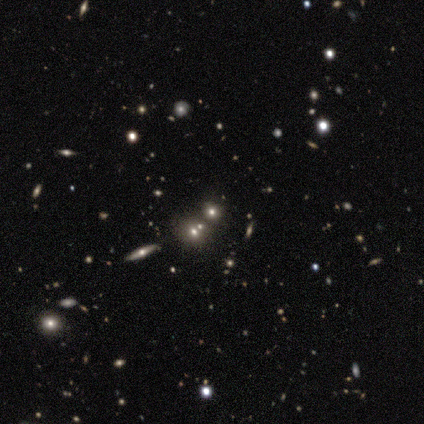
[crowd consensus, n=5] smooth 60%, featured or disk 20%, star or artifact 20%. Down the decision tree: how rounded — round (100%); merging — none (100%).